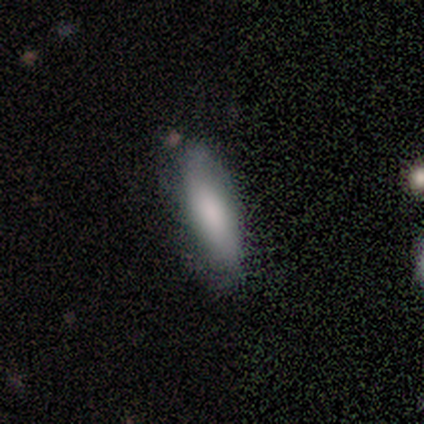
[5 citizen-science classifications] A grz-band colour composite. It shows a smooth galaxy with no disk features (80%) that is in between round and cigar-shaped (50%, tied with cigar-shaped). Merging: none (80%).